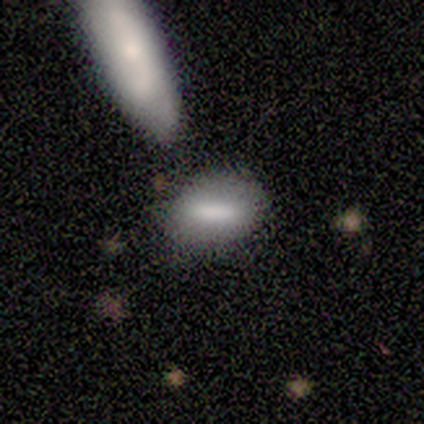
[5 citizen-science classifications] smooth_or_featured: smooth (p=0.80) [alt: featured or disk p=0.20]
how_rounded: in between (p=1.00)
merging: none (p=0.60) [alt: minor disturbance p=0.20]